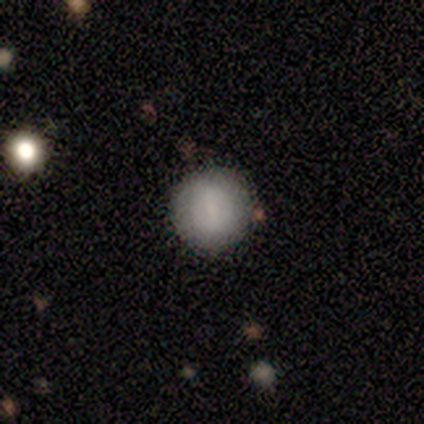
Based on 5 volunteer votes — smooth 80%, featured or disk 20%, star or artifact 0%. Down the decision tree: how rounded — round (100%); merging — none (80%).